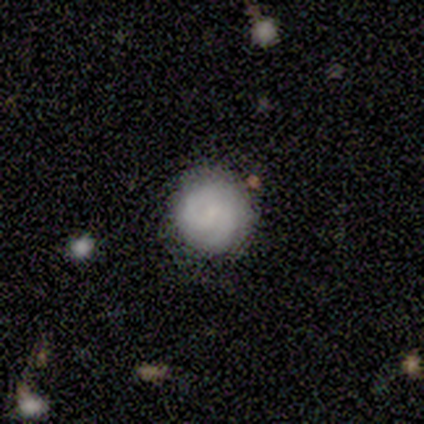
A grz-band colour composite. It shows a smooth galaxy with no disk features (100%) that is round (100%). Merging: none (100%).